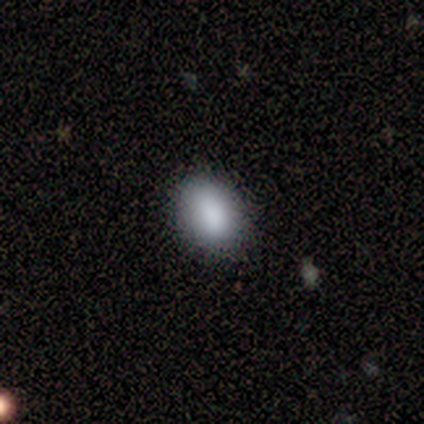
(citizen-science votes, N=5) This is clearly a smooth galaxy (80%). How rounded: likely in between (75%). Merging: likely none (60%).